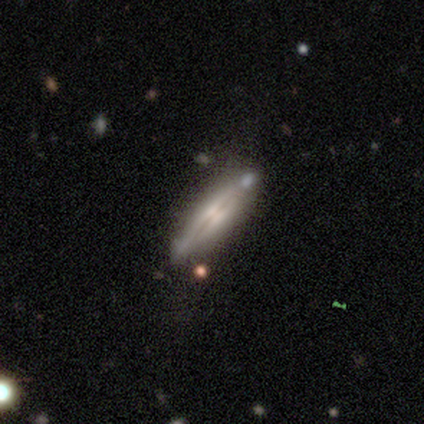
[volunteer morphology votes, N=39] Volunteers were most divided on "merging": none: 68%, minor disturbance: 21%, merger: 8%, major disturbance: 3%. More confident: edge-on disk — yes (93%); smooth or featured — featured or disk (74%); edge-on bulge — rounded (74%).